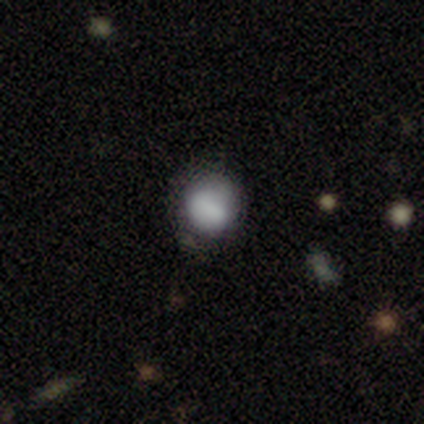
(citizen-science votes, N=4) Smooth or featured?
  - smooth: 75% *
  - featured or disk: 25%
  - star or artifact: 0%
How rounded?
  - round: 100% *
  - in between: 0%
  - cigar-shaped: 0%
Merging?
  - none: 75% *
  - minor disturbance: 25%
  - major disturbance: 0%
  - merger: 0%